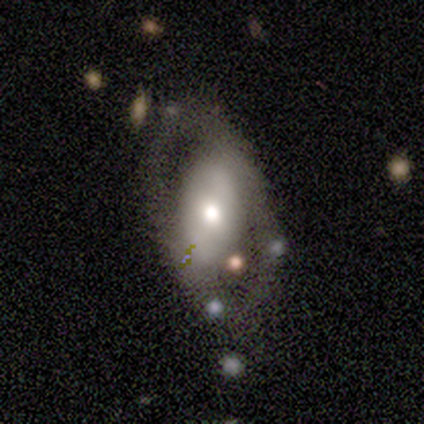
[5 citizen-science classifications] Q: Smooth or featured?
A: smooth (60%); runner-up: featured or disk (20%)
Q: How rounded?
A: in between (67%); runner-up: round (33%)
Q: Merging?
A: none (100%)